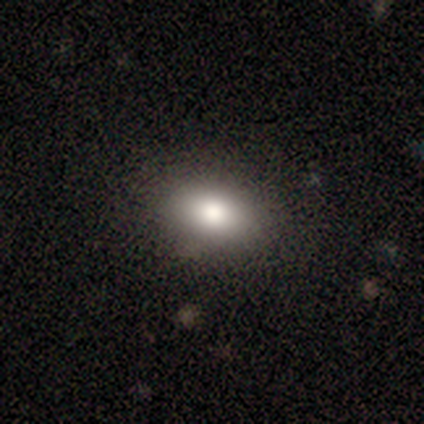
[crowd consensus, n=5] A smooth galaxy with no disk features (100%) that is in between round and cigar-shaped (60%).

Vote fractions:
- Smooth or featured? smooth: 100% / featured or disk: 0% / star or artifact: 0%
- How rounded? in between: 60% / round: 40% / cigar-shaped: 0%
- Merging? none: 100% / minor disturbance: 0% / major disturbance: 0% / merger: 0%